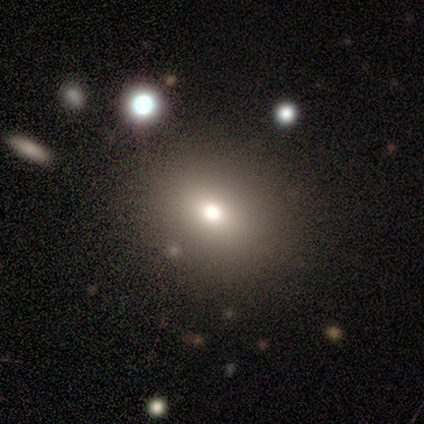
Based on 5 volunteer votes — smooth 40% (tied), featured or disk 40% (tied), star or artifact 20%. Down the decision tree: how rounded — in between (100%); merging — none (75%).